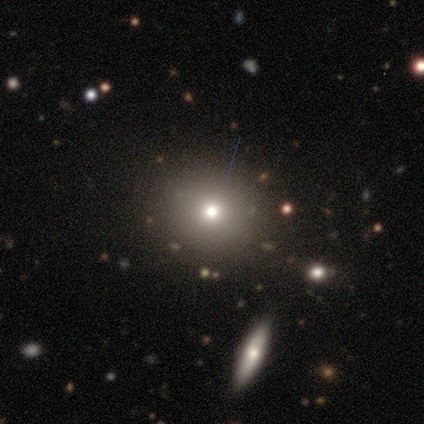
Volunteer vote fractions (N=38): Overall: smooth (68%). How rounded: round (92%). Merging: none (84%).